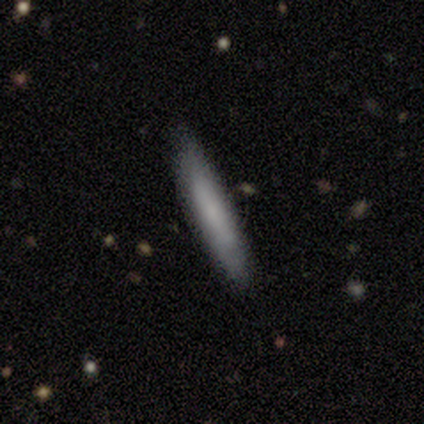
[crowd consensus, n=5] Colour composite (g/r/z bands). It shows a smooth galaxy with no disk features (80%) that is cigar-shaped (100%). Merging: none (100%).